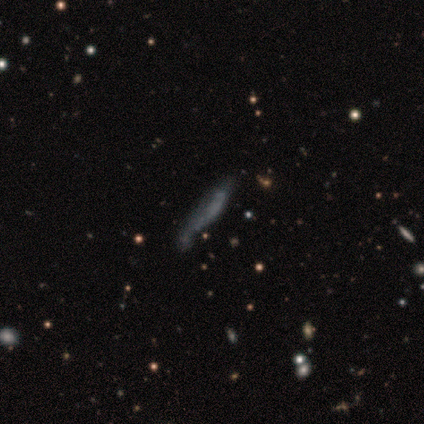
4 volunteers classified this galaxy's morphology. Q: Smooth or featured?
A: featured or disk (75%); runner-up: smooth (25%)
Q: Edge-on disk?
A: yes (100%)
Q: Edge-on bulge?
A: none (100%)
Q: Merging?
A: none (25%); tied with: minor disturbance (25%); major disturbance (25%); merger (25%)